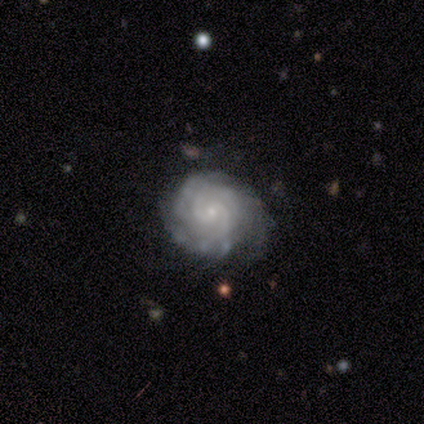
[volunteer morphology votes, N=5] type=featured or disk (100%); edge-on=no (100%); bar=no (80%); spiral arms=yes (100%); winding=tight (100%); arm count=3 (40%, tied with can't tell); bulge=small (100%); merging=none (60%).